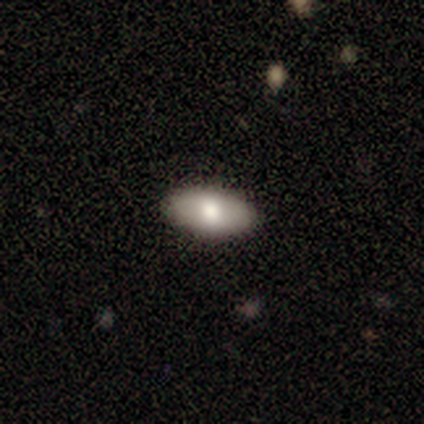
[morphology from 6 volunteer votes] smooth_or_featured: smooth (p=0.83) [alt: featured or disk p=0.17]
how_rounded: in between (p=1.00)
merging: none (p=0.83) [alt: minor disturbance p=0.17]